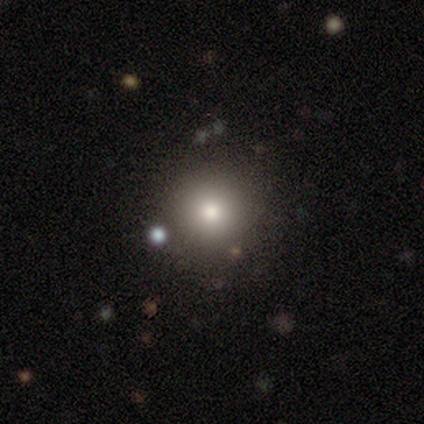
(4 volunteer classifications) smooth_or_featured: star or artifact (p=0.50) [alt: smooth p=0.25]